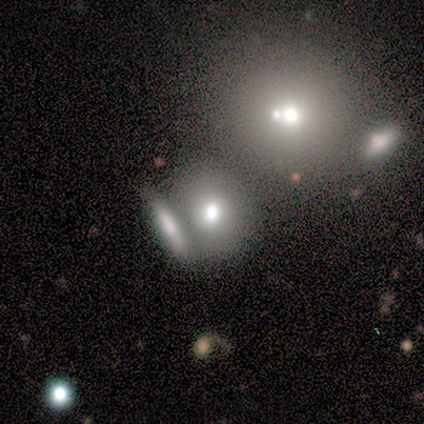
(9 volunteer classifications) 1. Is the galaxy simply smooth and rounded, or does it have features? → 67% smooth, 22% featured or disk, 11% star or artifact.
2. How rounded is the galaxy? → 50% round (tied), 50% in between (tied), 0% cigar-shaped.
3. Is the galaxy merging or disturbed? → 50% merger, 38% none, 12% major disturbance, 0% minor disturbance.